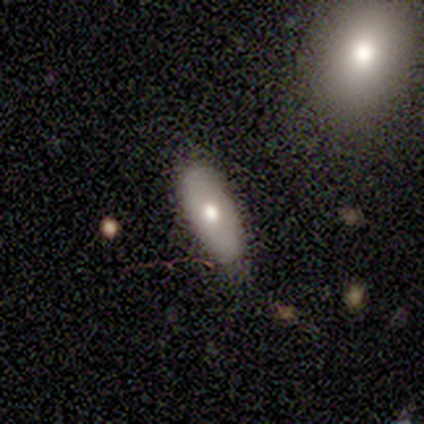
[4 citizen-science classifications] smooth 75%, featured or disk 25%, star or artifact 0%. Down the decision tree: how rounded — in between (100%); merging — none (75%).